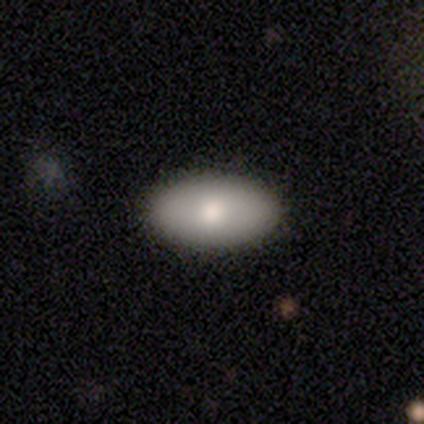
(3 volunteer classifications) Overall: smooth (100%). How rounded: in between (100%). Merging: none (67%; major disturbance 33%).